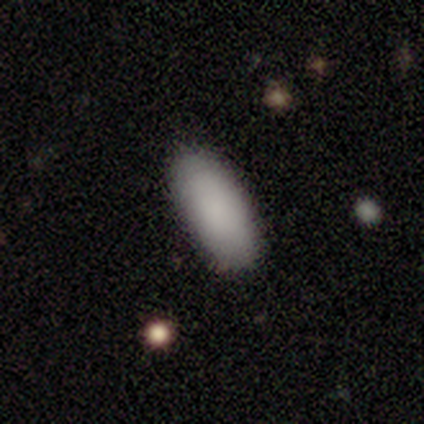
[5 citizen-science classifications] Smooth or featured: smooth — 80% (featured or disk — 20%)
How rounded: in between — 50% (tied with cigar-shaped — 50%)
Merging: none — 100%